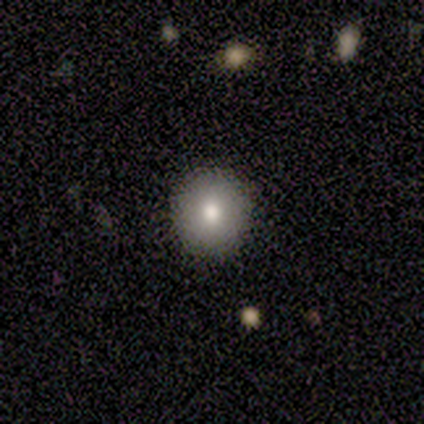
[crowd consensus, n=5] Smooth or featured? 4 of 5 (80%) said smooth. How rounded? 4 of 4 (100%) said round. Merging? 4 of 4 (100%) said none.